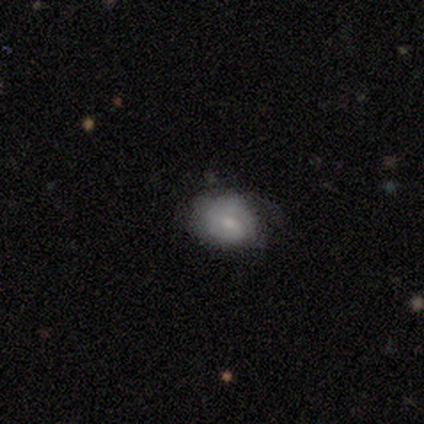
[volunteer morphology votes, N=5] smooth-or-featured: smooth: 60% | featured or disk: 20% | star or artifact: 20%
  how-rounded: in between: 67% | round: 33% | cigar-shaped: 0%
  merging: none: 75% | minor disturbance: 25% | major disturbance: 0% | merger: 0%